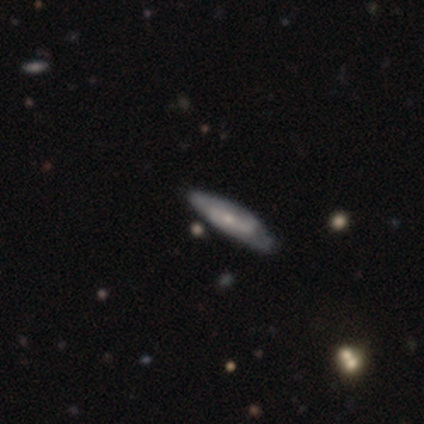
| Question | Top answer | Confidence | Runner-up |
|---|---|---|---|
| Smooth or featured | smooth | 75% | featured or disk (25%) |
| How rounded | cigar-shaped | 67% | round (33%) |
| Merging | none | 75% | merger (25%) |